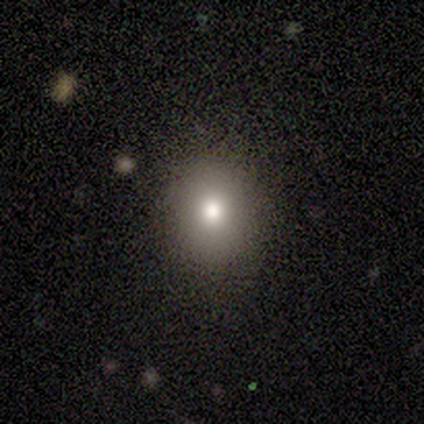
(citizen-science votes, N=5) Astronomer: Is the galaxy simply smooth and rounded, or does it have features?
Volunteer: smooth — 60% (runner-up: featured or disk, 40%).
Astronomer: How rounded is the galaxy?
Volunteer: round — 100%.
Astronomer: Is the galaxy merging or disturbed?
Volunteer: none — 80%.